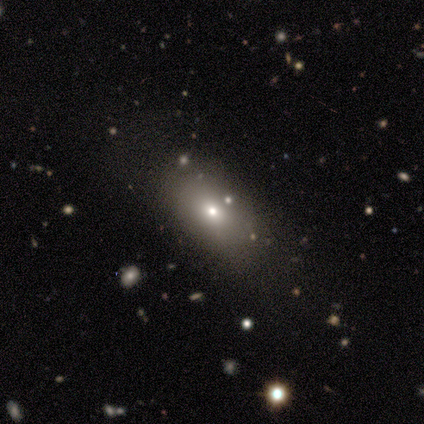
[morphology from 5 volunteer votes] smooth 60%, featured or disk 20%, star or artifact 20%. Down the decision tree: how rounded — in between (100%); merging — none (75%).